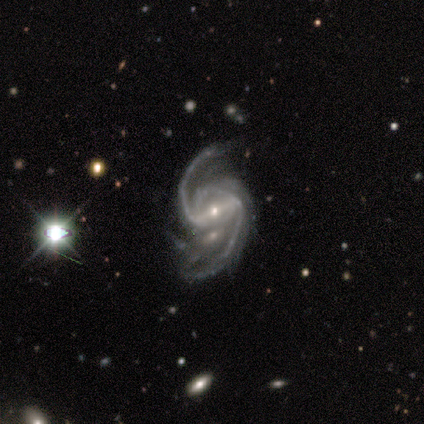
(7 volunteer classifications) smooth-or-featured: featured or disk: 100% | smooth: 0% | star or artifact: 0%
  disk-edge-on: no: 100% | yes: 0%
    bar: strong: 100% | weak: 0% | no: 0%
    has-spiral-arms: yes: 100% | no: 0%
      spiral-winding: medium: 43% (tied) | loose: 43% (tied) | tight: 14%
      spiral-arm-count: 2: 57% | 3: 29% | can't tell: 14% | 1: 0% | 4: 0% | more than 4: 0%
    bulge-size: small: 71% | moderate: 29% | dominant: 0% | large: 0% | none: 0%
  merging: minor disturbance: 43% | none: 29% | major disturbance: 14% | merger: 14%